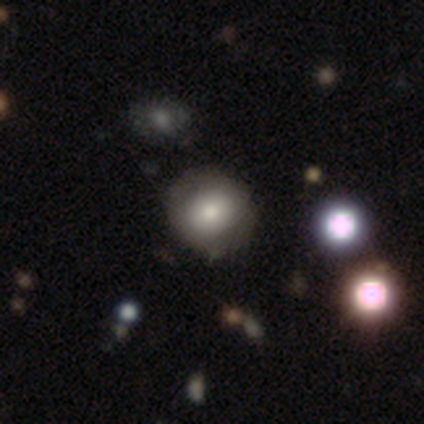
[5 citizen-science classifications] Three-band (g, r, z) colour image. It shows a featured or disk galaxy (60%) with no bar (100%), no spiral arms (100%) and a moderate central bulge (67%). Merging: none (100%).